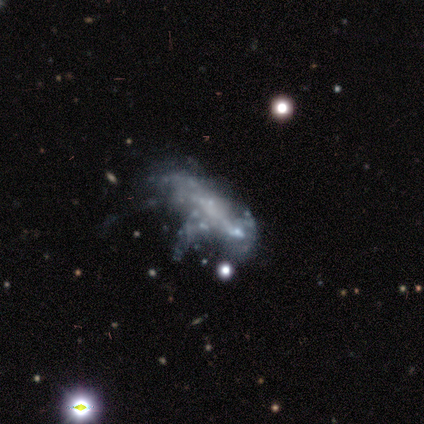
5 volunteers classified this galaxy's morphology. A featured or disk galaxy (80%) with no bar (100%), no spiral arms (100%) and no central bulge (100%). Merging: major disturbance (100%).